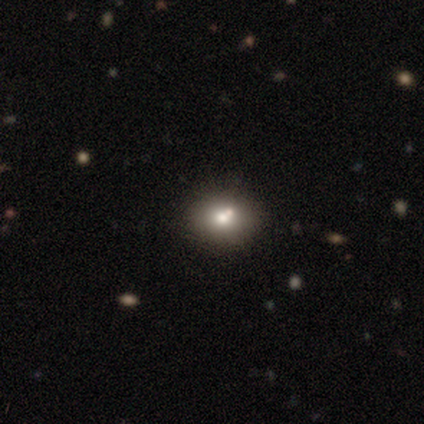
Smooth or featured: featured or disk — 50% (smooth — 25%)
Edge-on disk: no — 100%
Bar: no — 100%
Spiral arms: no — 100%
Bulge size: moderate — 50% (tied with none — 50%)
Merging: none — 33% (tied with minor disturbance — 33%; merger — 33%)